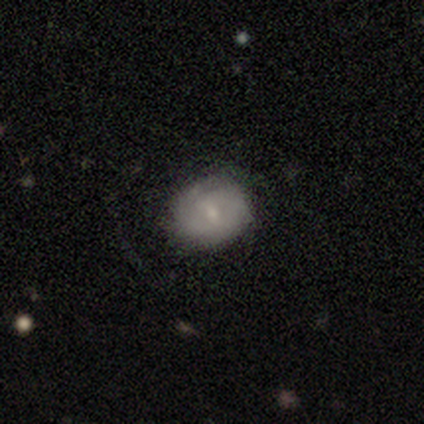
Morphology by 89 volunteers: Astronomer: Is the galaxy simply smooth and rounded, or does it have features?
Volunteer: smooth — 54% (runner-up: featured or disk, 39%).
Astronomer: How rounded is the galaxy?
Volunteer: round — 65%.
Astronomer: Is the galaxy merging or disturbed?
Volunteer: none — 80%.